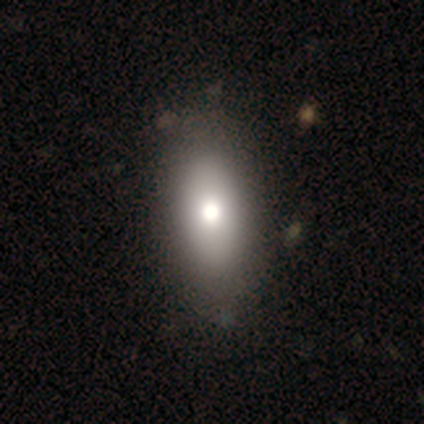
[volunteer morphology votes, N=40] A smooth galaxy with no disk features (75%) that is in between round and cigar-shaped (87%). Merging: none (58%).